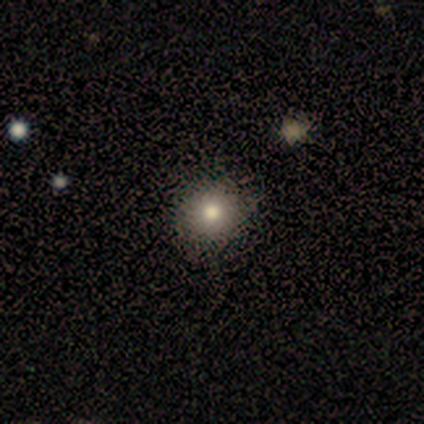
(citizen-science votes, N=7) A smooth galaxy with no disk features (71%) that is round (100%).

Vote fractions:
- Smooth or featured? smooth: 71% / star or artifact: 29% / featured or disk: 0%
- How rounded? round: 100% / in between: 0% / cigar-shaped: 0%
- Merging? none: 100% / minor disturbance: 0% / major disturbance: 0% / merger: 0%